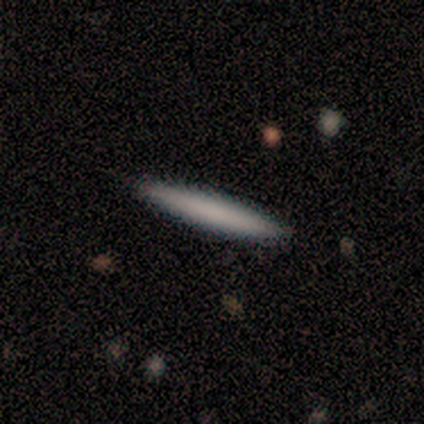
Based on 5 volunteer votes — smooth-or-featured: smooth: 100% | featured or disk: 0% | star or artifact: 0%
  how-rounded: cigar-shaped: 100% | round: 0% | in between: 0%
  merging: none: 80% | minor disturbance: 20% | major disturbance: 0% | merger: 0%